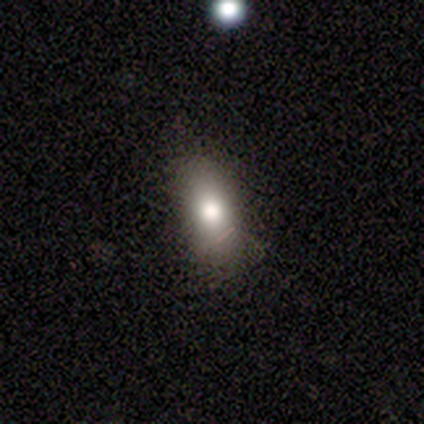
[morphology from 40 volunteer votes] Smooth or featured?
  - smooth: 68% *
  - featured or disk: 20%
  - star or artifact: 12%
How rounded?
  - in between: 85% *
  - cigar-shaped: 11%
  - round: 4%
Merging?
  - none: 83% *
  - minor disturbance: 14%
  - major disturbance: 3%
  - merger: 0%